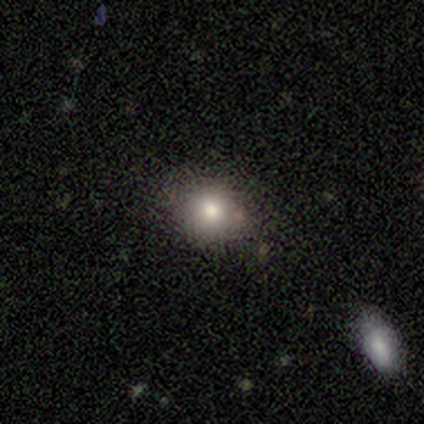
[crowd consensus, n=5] A featured or disk galaxy (60%) with no bar (100%), no spiral arms (100%) and a moderate central bulge (67%). Merging: none (80%).